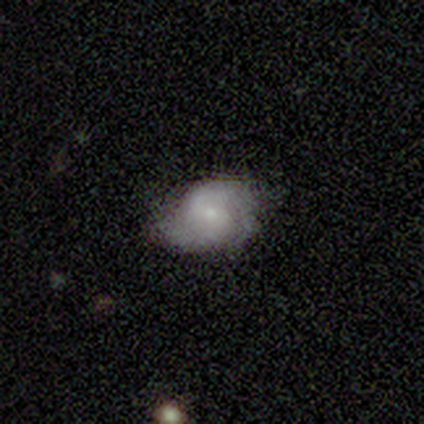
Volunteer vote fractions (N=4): This appears to be a featured or disk galaxy (50%) with no bar (100%), 2 (50%, tied with can't tell) tight (50%, tied with loose) spiral arms (100%) and a small central bulge (100%). Merging: minor disturbance (67%).